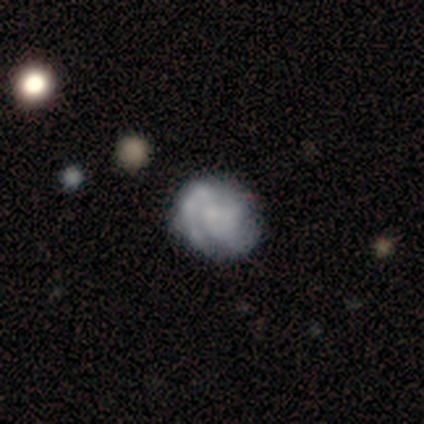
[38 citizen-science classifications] Smooth or featured? 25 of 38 (66%) said featured or disk. Edge-on disk? 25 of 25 (100%) said no. Bar? 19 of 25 (76%) said no. Spiral arms? 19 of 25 (76%) said yes. Spiral winding? 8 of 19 (42%, tied with medium) said tight. Spiral arm count? 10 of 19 (53%) said 2. Bulge size? 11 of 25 (44%) said none. Merging? 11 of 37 (30%) said none.